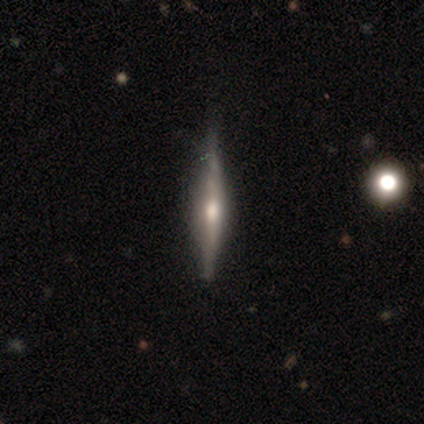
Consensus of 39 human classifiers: Smooth or featured? featured or disk (79%)
Edge-on disk? yes (100%)
Edge-on bulge? rounded (77%)
Merging? none (86%)